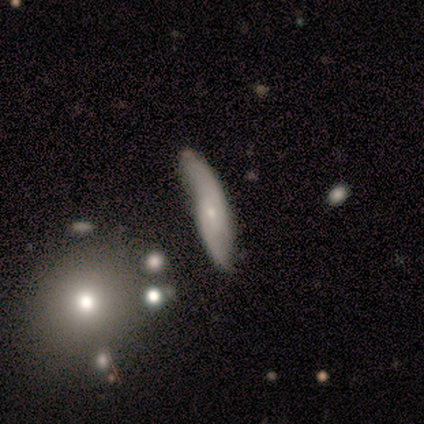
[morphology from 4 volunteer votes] smooth-or-featured: featured or disk: 100% | smooth: 0% | star or artifact: 0%
  disk-edge-on: no: 75% | yes: 25%
    bar: weak: 67% | no: 33% | strong: 0%
    has-spiral-arms: yes: 100% | no: 0%
      spiral-winding: medium: 67% | loose: 33% | tight: 0%
      spiral-arm-count: 2: 67% | can't tell: 33% | 1: 0% | 3: 0% | 4: 0% | more than 4: 0%
    bulge-size: small: 100% | dominant: 0% | large: 0% | moderate: 0% | none: 0%
  merging: minor disturbance: 75% | none: 25% | major disturbance: 0% | merger: 0%